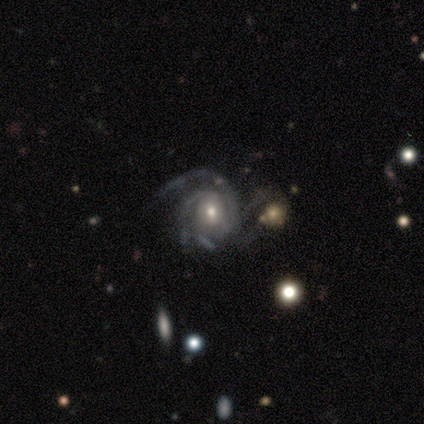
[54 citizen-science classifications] smooth_or_featured: featured or disk (p=0.93) [alt: star or artifact p=0.06]
disk_edge_on: no (p=1.00)
bar: no (p=0.62) [alt: weak p=0.38]
has_spiral_arms: yes (p=0.98) [alt: no p=0.02]
spiral_winding: tight (p=0.47) [tied with: medium p=0.47]
spiral_arm_count: 3 (p=0.47) [alt: 2 p=0.33]
bulge_size: moderate (p=0.70) [alt: small p=0.26]
merging: none (p=0.35) [alt: minor disturbance p=0.31]